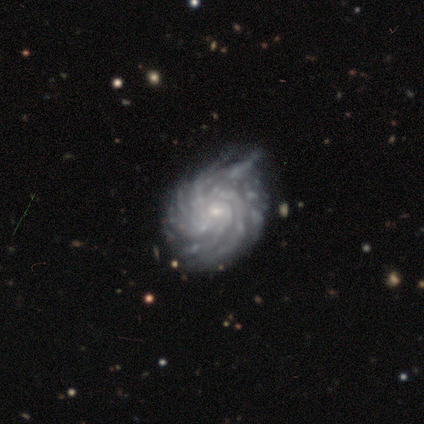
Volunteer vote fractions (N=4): Smooth or featured? featured or disk (100%)
Edge-on disk? no (100%)
Bar? weak (50%, tied with no)
Spiral arms? yes (100%)
Spiral winding? tight (75%)
Spiral arm count? more than 4 (100%)
Bulge size? small (100%)
Merging? minor disturbance (100%)